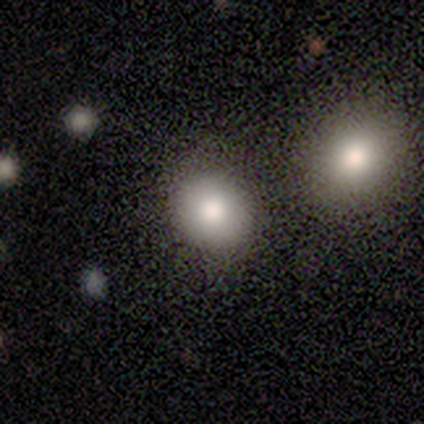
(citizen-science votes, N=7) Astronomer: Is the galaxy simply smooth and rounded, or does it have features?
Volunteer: smooth — 86%.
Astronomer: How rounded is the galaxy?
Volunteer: round — 67%.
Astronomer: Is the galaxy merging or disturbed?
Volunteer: none — 67%.